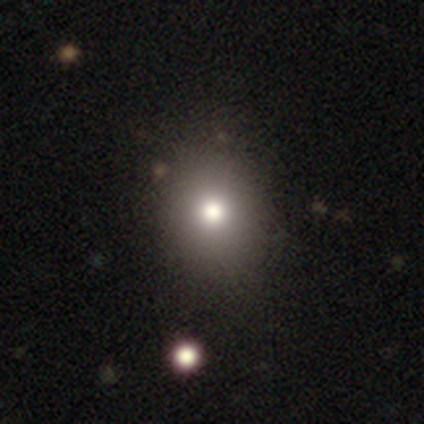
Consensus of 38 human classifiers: Morphology: type=smooth (63%); roundness=round (67%); merging=none (55%).